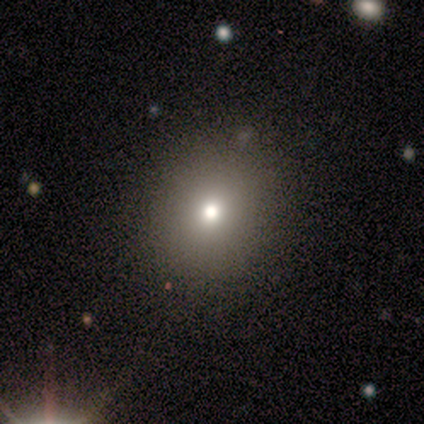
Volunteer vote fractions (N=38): smooth 61%, featured or disk 26%, star or artifact 13%. Down the decision tree: how rounded — round (78%); merging — none (88%).